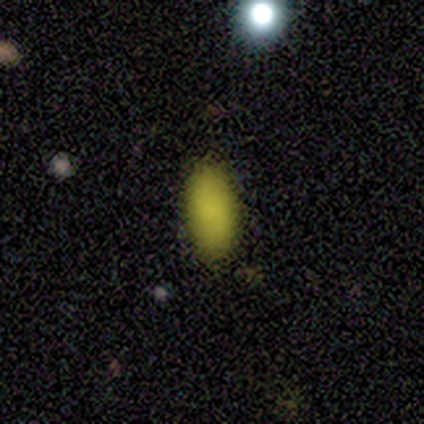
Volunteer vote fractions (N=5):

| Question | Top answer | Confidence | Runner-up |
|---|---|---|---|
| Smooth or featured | star or artifact | 60% | smooth (40%) |